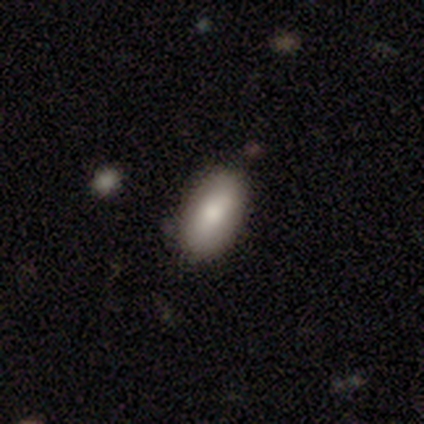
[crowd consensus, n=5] Overall: smooth (80%). How rounded: in between (100%). Merging: none (75%).